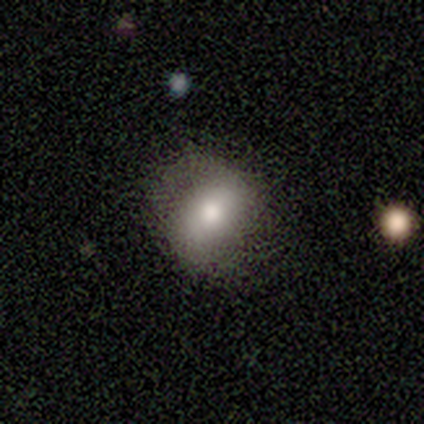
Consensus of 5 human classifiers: A smooth galaxy with no disk features (80%) that is in between round and cigar-shaped (75%).

Vote fractions:
- Smooth or featured? smooth: 80% / featured or disk: 20% / star or artifact: 0%
- How rounded? in between: 75% / round: 25% / cigar-shaped: 0%
- Merging? none: 60% / minor disturbance: 20% / major disturbance: 20% / merger: 0%